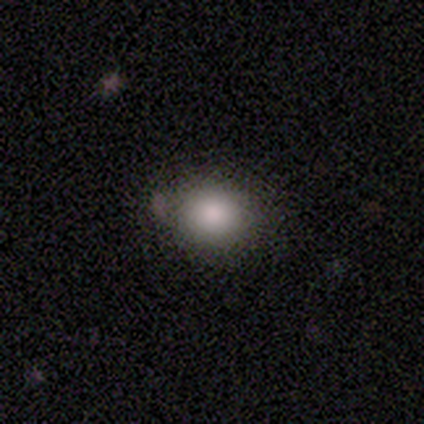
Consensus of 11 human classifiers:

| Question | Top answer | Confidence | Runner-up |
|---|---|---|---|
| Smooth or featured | smooth | 73% | star or artifact (18%) |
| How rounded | round | 62% | in between (38%) |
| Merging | minor disturbance | 67% | none (22%) |